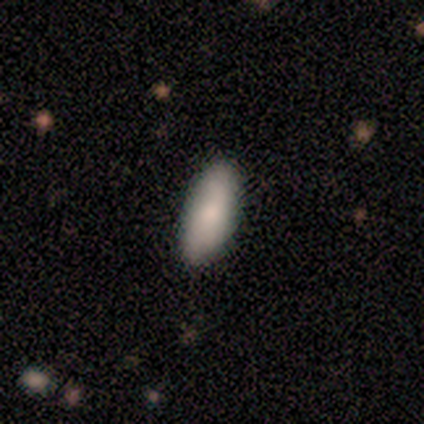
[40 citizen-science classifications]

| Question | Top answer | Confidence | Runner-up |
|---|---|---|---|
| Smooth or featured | smooth | 90% | featured or disk (5%) |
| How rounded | in between | 75% | cigar-shaped (25%) |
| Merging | none | 87% | minor disturbance (8%) |